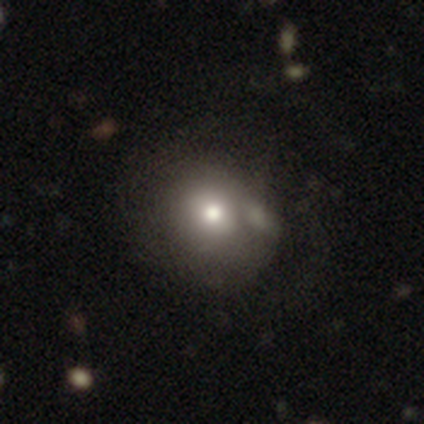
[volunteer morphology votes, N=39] Smooth or featured: smooth — 85% (featured or disk — 15%)
How rounded: round — 76% (in between — 21%)
Merging: none — 38% (merger — 26%)